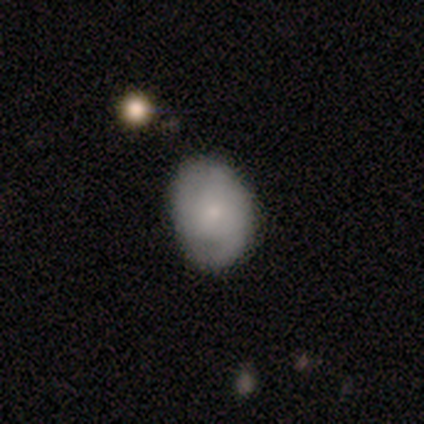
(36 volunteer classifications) smooth_or_featured: smooth (p=0.47) [tied with: featured or disk p=0.47]
how_rounded: in between (p=0.53) [alt: round p=0.47]
merging: none (p=0.68) [alt: minor disturbance p=0.24]